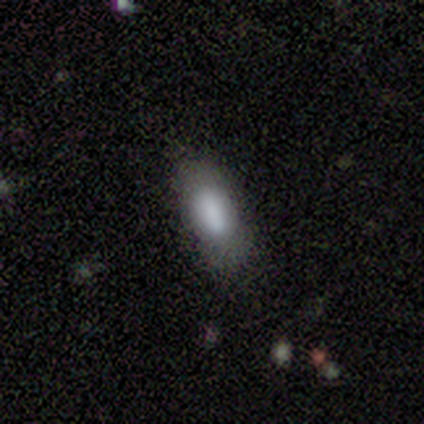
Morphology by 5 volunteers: Q: Smooth or featured?
A: smooth (80%); runner-up: featured or disk (20%)
Q: How rounded?
A: in between (100%)
Q: Merging?
A: none (80%); runner-up: minor disturbance (20%)